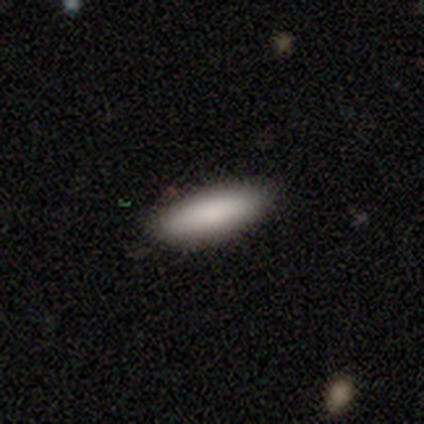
smooth_or_featured: smooth (p=0.85) [alt: featured or disk p=0.11]
how_rounded: cigar-shaped (p=0.57) [alt: in between p=0.42]
merging: none (p=0.91) [alt: minor disturbance p=0.09]